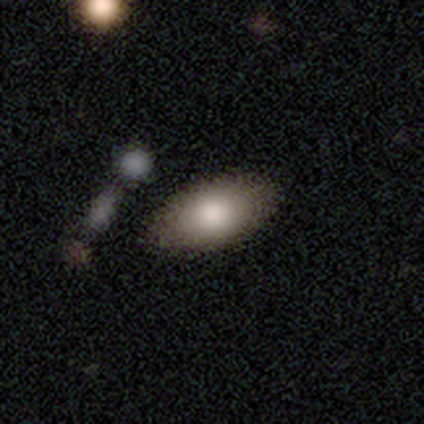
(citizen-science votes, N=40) Smooth or featured? smooth (85%)
How rounded? in between (94%)
Merging? none (74%)